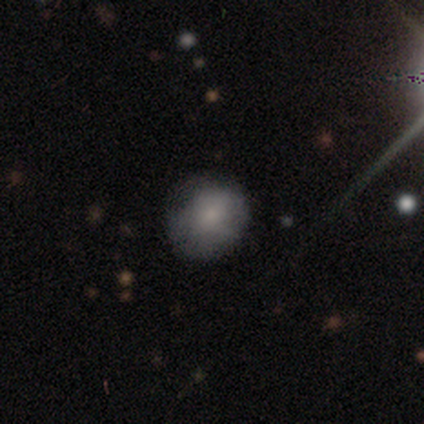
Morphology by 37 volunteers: Smooth or featured?
  - smooth: 81% *
  - featured or disk: 16%
  - star or artifact: 3%
How rounded?
  - round: 83% *
  - in between: 17%
  - cigar-shaped: 0%
Merging?
  - none: 72% *
  - minor disturbance: 22%
  - major disturbance: 3%
  - merger: 3%